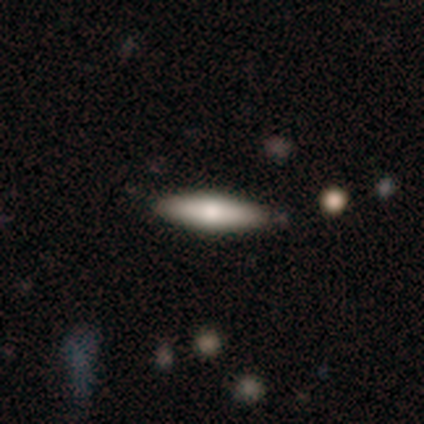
A smooth galaxy with no disk features (75%) that is in between round and cigar-shaped (67%). Merging: none (75%).